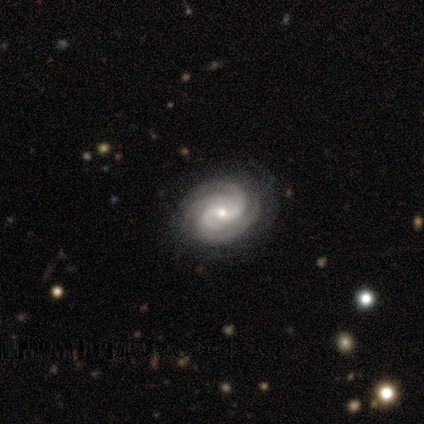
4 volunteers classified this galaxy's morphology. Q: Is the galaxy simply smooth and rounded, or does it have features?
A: featured or disk — 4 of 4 (100%).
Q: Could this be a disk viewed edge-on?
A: no — 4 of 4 (100%).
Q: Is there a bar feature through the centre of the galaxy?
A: no — 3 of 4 (75%).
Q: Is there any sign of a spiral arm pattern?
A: yes — 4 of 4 (100%).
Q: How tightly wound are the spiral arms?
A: tight — 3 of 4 (75%).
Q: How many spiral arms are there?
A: can't tell — 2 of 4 (50%).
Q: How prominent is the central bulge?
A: small — 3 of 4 (75%).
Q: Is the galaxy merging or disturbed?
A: none — 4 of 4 (100%).